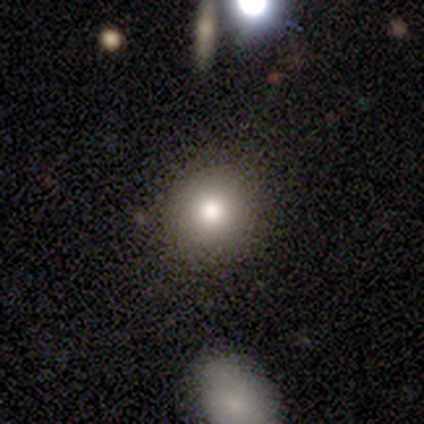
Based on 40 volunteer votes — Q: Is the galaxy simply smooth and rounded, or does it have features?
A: smooth — 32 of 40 (80%).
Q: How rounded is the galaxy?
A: round — 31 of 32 (97%).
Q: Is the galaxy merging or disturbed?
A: none — 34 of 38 (89%).